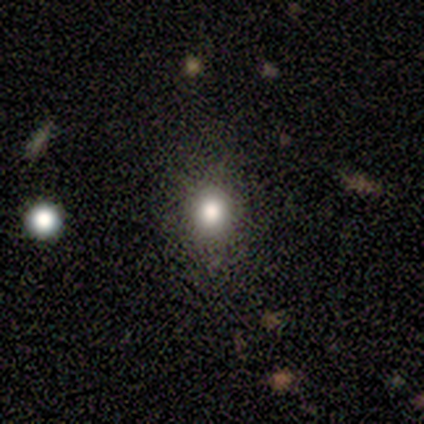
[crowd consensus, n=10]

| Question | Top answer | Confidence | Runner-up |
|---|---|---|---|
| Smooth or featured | smooth | 70% | featured or disk (20%) |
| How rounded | round | 86% | in between (14%) |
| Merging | none | 100% | — |